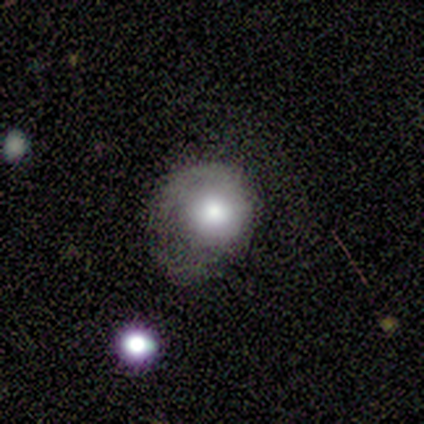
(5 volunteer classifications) Q: Smooth or featured?
A: smooth (60%); runner-up: featured or disk (40%)
Q: How rounded?
A: round (67%); runner-up: in between (33%)
Q: Merging?
A: minor disturbance (60%); runner-up: none (20%)